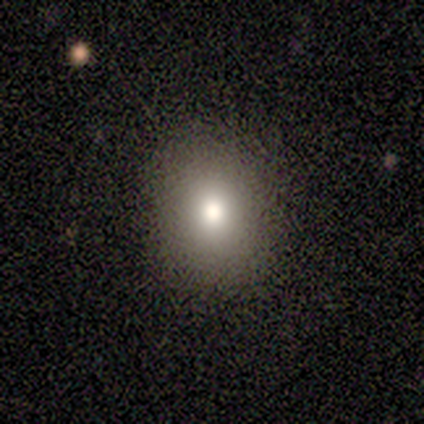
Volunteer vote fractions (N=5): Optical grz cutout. It shows a smooth galaxy with no disk features (100%) that is round (60%). Merging: none (80%).